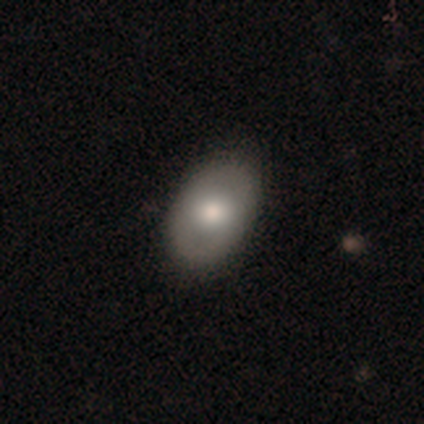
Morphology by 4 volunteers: Volunteers were most divided on "how rounded": in between: 75%, round: 25%, cigar-shaped: 0%. More confident: smooth or featured — smooth (100%); merging — none (75%).